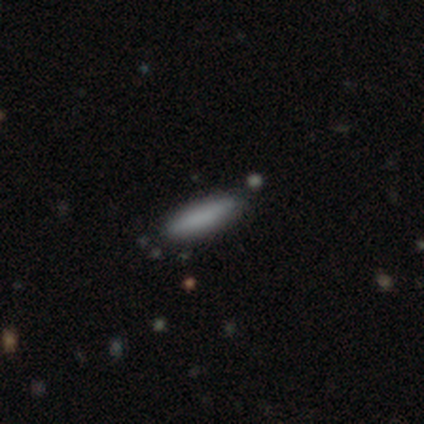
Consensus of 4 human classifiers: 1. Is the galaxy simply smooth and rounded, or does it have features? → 100% smooth, 0% featured or disk, 0% star or artifact.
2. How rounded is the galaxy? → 100% cigar-shaped, 0% round, 0% in between.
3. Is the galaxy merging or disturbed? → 100% none, 0% minor disturbance, 0% major disturbance, 0% merger.